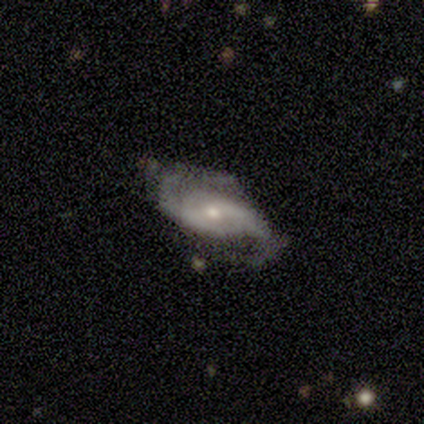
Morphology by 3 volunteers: Smooth or featured? featured or disk (100%)
Edge-on disk? no (100%)
Bar? no (100%)
Spiral arms? yes (100%)
Spiral winding? medium (67%)
Spiral arm count? 2 (100%)
Bulge size? small (100%)
Merging? none (100%)